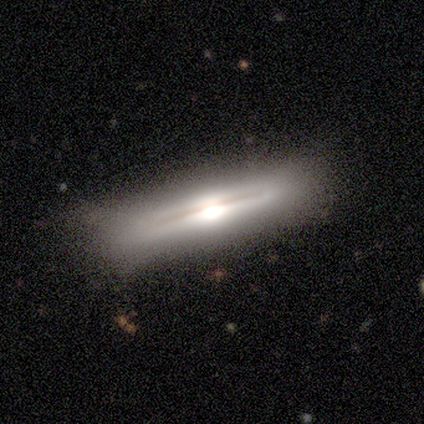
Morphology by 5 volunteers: This is likely a featured or disk galaxy (60%). It is clearly viewed edge-on (100%). Edge-on bulge: clearly rounded (100%). Merging: clearly none (100%).